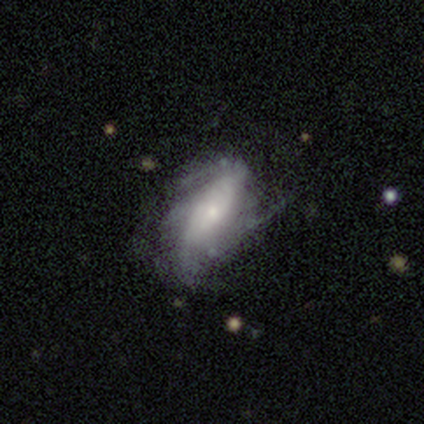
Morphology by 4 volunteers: smooth-or-featured: featured or disk: 75% | smooth: 25% | star or artifact: 0%
  disk-edge-on: no: 100% | yes: 0%
    bar: no: 100% | strong: 0% | weak: 0%
    has-spiral-arms: yes: 67% | no: 33%
      spiral-winding: tight: 50% (tied) | loose: 50% (tied) | medium: 0%
      spiral-arm-count: 2: 50% (tied) | can't tell: 50% (tied) | 1: 0% | 3: 0% | 4: 0% | more than 4: 0%
    bulge-size: small: 100% | dominant: 0% | large: 0% | moderate: 0% | none: 0%
  merging: none: 50% (tied) | minor disturbance: 50% (tied) | major disturbance: 0% | merger: 0%